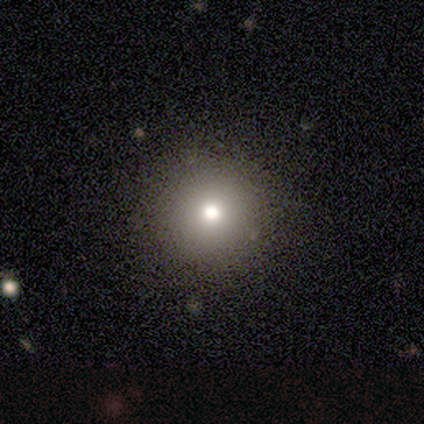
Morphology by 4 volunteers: Smooth or featured: smooth — 100%
How rounded: round — 100%
Merging: none — 75% (merger — 25%)